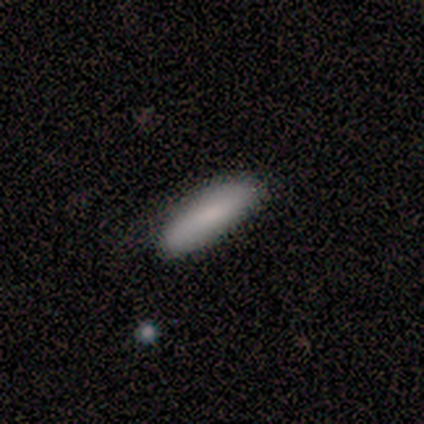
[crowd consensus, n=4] This is clearly a smooth galaxy (100%). How rounded: possibly in between (50%, tied with cigar-shaped). Merging: clearly none (100%).